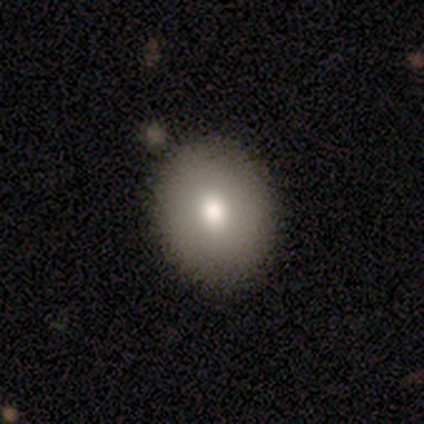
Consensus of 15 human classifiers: Smooth or featured: smooth — 93% (featured or disk — 7%)
How rounded: in between — 57% (round — 43%)
Merging: none — 87% (minor disturbance — 7%)